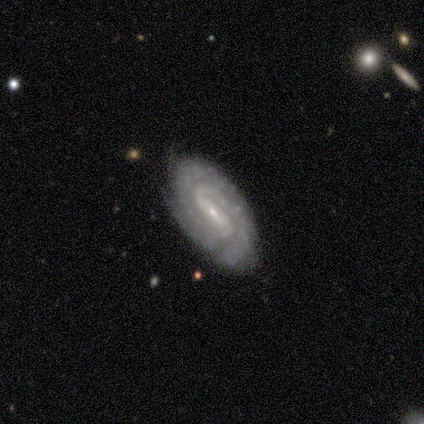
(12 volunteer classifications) Smooth or featured? 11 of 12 (92%) said featured or disk. Edge-on disk? 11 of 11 (100%) said no. Bar? 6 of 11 (55%) said weak. Spiral arms? 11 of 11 (100%) said yes. Spiral winding? 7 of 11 (64%) said tight. Spiral arm count? 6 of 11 (55%) said 2. Bulge size? 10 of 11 (91%) said small. Merging? 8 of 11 (73%) said none.